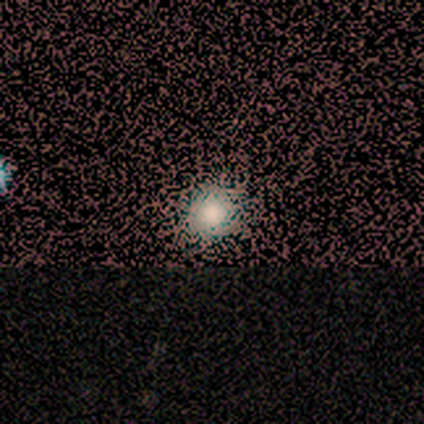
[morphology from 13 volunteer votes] type=smooth (46%); roundness=round (100%); merging=none (100%).